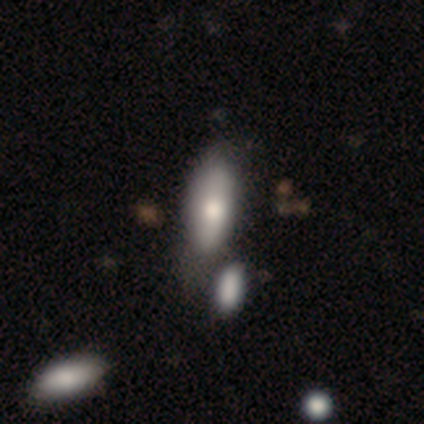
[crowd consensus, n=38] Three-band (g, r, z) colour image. It shows a smooth galaxy with no disk features (74%) that is in between round and cigar-shaped (86%). Merging: none (44%).